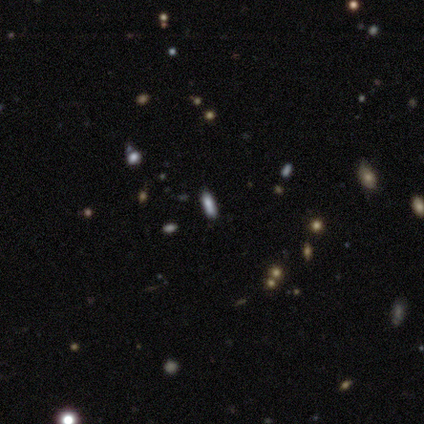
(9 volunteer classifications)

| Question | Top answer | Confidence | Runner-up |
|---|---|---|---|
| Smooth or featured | smooth | 78% | star or artifact (22%) |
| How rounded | cigar-shaped | 57% | in between (43%) |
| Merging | none | 100% | — |